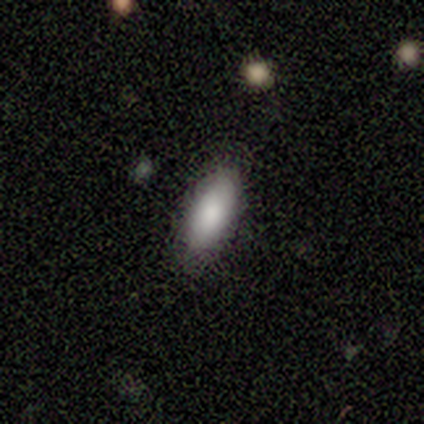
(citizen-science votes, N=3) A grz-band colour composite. It shows a smooth galaxy with no disk features (100%) that is in between round and cigar-shaped (67%). Merging: none (100%).